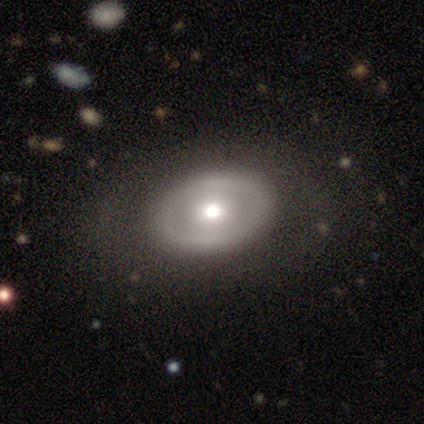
A featured or disk galaxy (60%) with no bar (100%), no spiral arms (100%) and a large central bulge (50%, tied with moderate).

Vote fractions:
- Smooth or featured? featured or disk: 60% / smooth: 40% / star or artifact: 0%
- Edge-on disk? no: 67% / yes: 33%
- Bar? no: 100% / strong: 0% / weak: 0%
- Spiral arms? no: 100% / yes: 0%
- Bulge size? large: 50% (tied) / moderate: 50% (tied) / dominant: 0% / small: 0% / none: 0%
- Merging? none: 80% / minor disturbance: 20% / major disturbance: 0% / merger: 0%